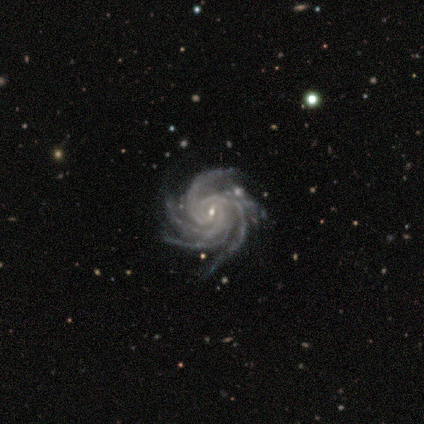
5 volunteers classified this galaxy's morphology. A featured or disk galaxy (100%) with a weak bar (60%), more than 4 (60%) tight (80%) spiral arms (100%) and a small central bulge (100%).

Vote fractions:
- Smooth or featured? featured or disk: 100% / smooth: 0% / star or artifact: 0%
- Edge-on disk? no: 100% / yes: 0%
- Bar? weak: 60% / strong: 40% / no: 0%
- Spiral arms? yes: 100% / no: 0%
- Spiral winding? tight: 80% / medium: 20% / loose: 0%
- Spiral arm count? more than 4: 60% / 4: 40% / 1: 0% / 2: 0% / 3: 0% / can't tell: 0%
- Bulge size? small: 100% / dominant: 0% / large: 0% / moderate: 0% / none: 0%
- Merging? none: 100% / minor disturbance: 0% / major disturbance: 0% / merger: 0%